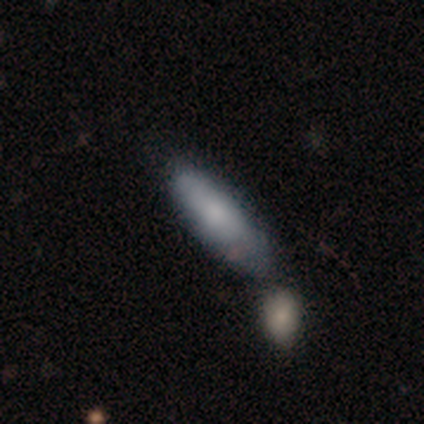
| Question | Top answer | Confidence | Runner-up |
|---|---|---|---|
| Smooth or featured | smooth | 69% | featured or disk (31%) |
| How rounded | in between | 81% | cigar-shaped (19%) |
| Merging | merger | 38% | none (28%) |